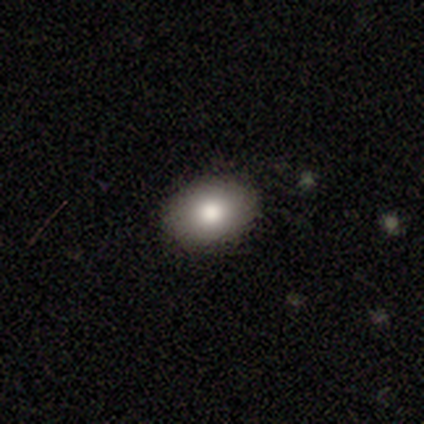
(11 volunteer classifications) Smooth or featured? smooth (91%)
How rounded? in between (90%)
Merging? none (90%)